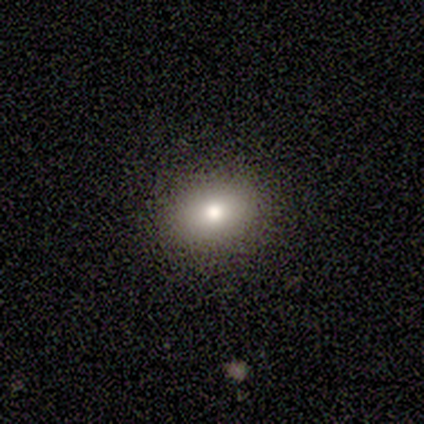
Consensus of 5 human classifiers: This appears to be a smooth galaxy with no disk features (60%) that is round (67%). Merging: none (100%).